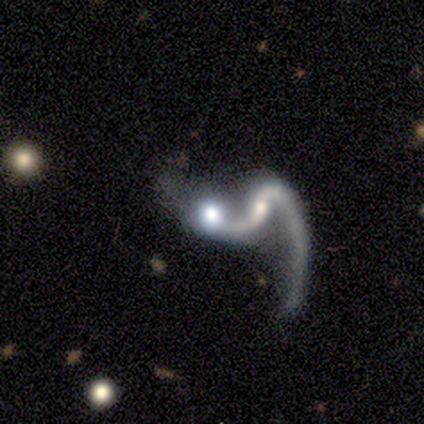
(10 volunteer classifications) A featured or disk galaxy (70%) with a weak bar (43%), 2 (57%) loose (57%) spiral arms (100%) and a small central bulge (43%). Merging: merger (62%).